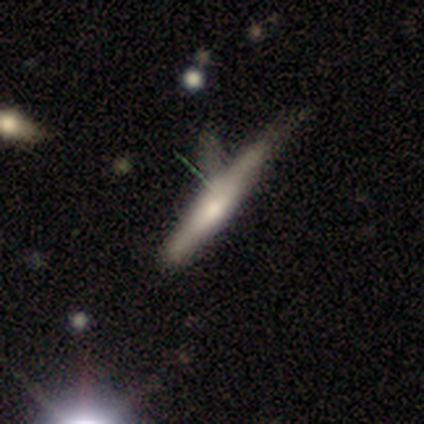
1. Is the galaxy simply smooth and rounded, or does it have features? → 60% smooth, 40% featured or disk, 0% star or artifact.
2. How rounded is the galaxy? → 100% cigar-shaped, 0% round, 0% in between.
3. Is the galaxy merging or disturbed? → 40% none (tied), 40% minor disturbance (tied), 20% major disturbance, 0% merger.